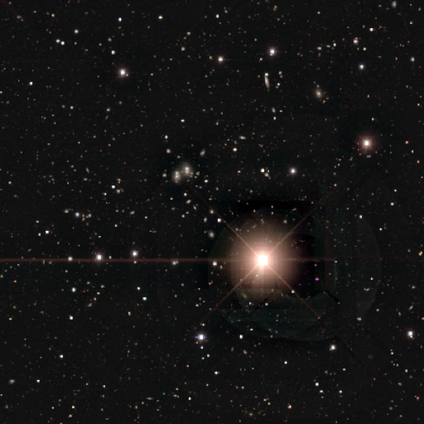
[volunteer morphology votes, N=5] Overall: star or artifact (60%; smooth 20%).